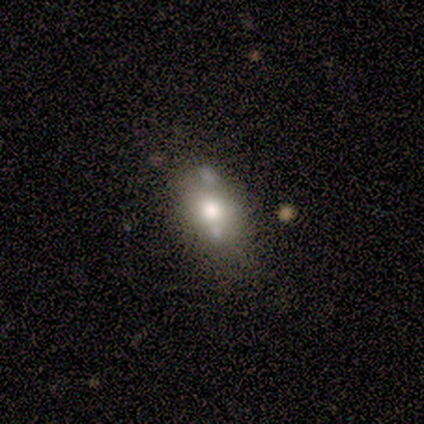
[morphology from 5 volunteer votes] smooth 100%, featured or disk 0%, star or artifact 0%. Down the decision tree: how rounded — in between (60%); merging — none (60%).